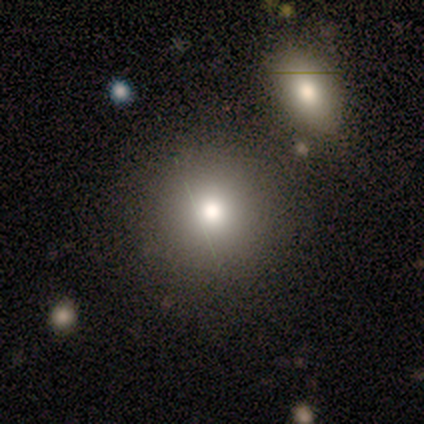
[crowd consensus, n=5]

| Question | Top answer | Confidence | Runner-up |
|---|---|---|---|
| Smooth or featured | smooth | 100% | — |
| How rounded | round | 100% | — |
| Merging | none | 80% | merger (20%) |